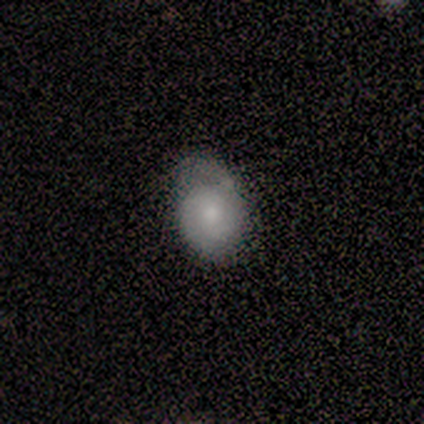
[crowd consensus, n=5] A smooth galaxy with no disk features (80%) that is in between round and cigar-shaped (100%). Merging: none (40%, tied with minor disturbance).